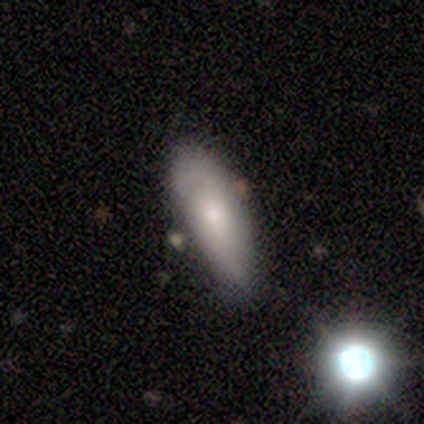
A featured or disk galaxy (60%) with a weak bar (50%, tied with no), 2 (100%) medium (100%) spiral arms (100%) and a moderate central bulge (100%).

Vote fractions:
- Smooth or featured? featured or disk: 60% / smooth: 20% / star or artifact: 20%
- Edge-on disk? no: 67% / yes: 33%
- Bar? weak: 50% (tied) / no: 50% (tied) / strong: 0%
- Spiral arms? yes: 100% / no: 0%
- Spiral winding? medium: 100% / tight: 0% / loose: 0%
- Spiral arm count? 2: 100% / 1: 0% / 3: 0% / 4: 0% / more than 4: 0% / can't tell: 0%
- Bulge size? moderate: 100% / dominant: 0% / large: 0% / small: 0% / none: 0%
- Merging? minor disturbance: 50% / none: 25% / merger: 25% / major disturbance: 0%